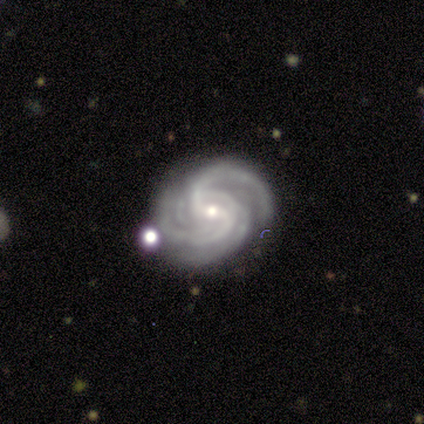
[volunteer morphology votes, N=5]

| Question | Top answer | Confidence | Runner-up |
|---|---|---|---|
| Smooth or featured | featured or disk | 100% | — |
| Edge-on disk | no | 100% | — |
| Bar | weak | 80% | no (20%) |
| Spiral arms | yes | 100% | — |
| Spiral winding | tight | 60% | medium (40%) |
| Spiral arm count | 2 | 60% | 3 (20%) |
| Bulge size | moderate | 60% | small (40%) |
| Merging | none | 100% | — |